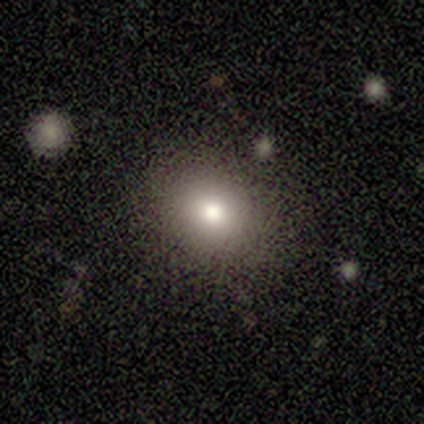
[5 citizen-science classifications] smooth 60%, featured or disk 20%, star or artifact 20%. Down the decision tree: how rounded — round (100%); merging — none (100%).